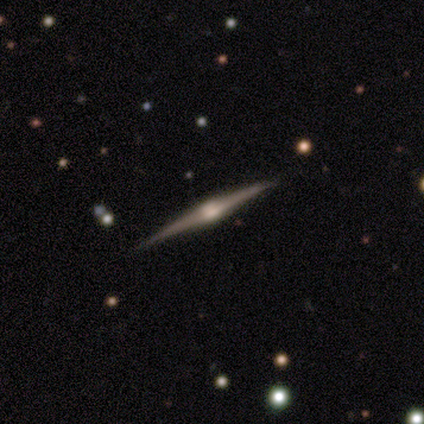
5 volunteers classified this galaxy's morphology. Smooth or featured? featured or disk (100%)
Edge-on disk? yes (100%)
Edge-on bulge? rounded (100%)
Merging? none (100%)